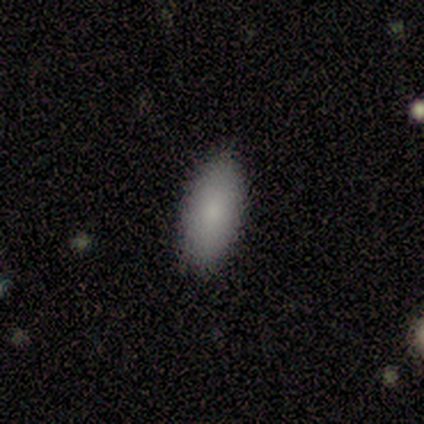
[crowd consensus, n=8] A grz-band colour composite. It shows a smooth galaxy with no disk features (100%) that is in between round and cigar-shaped (100%). Merging: none (100%).